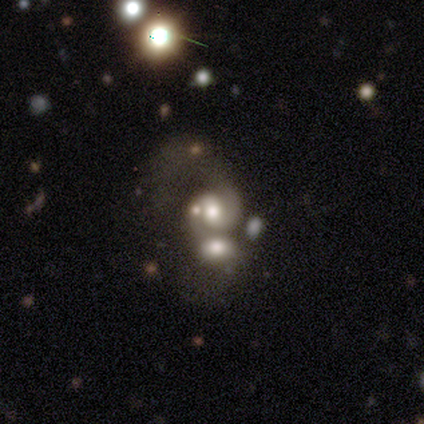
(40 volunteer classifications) Smooth or featured? featured or disk (78%)
Edge-on disk? no (94%)
Bar? no (55%)
Spiral arms? yes (79%)
Spiral winding? tight (43%)
Spiral arm count? 2 (74%)
Bulge size? moderate (45%)
Merging? merger (67%)